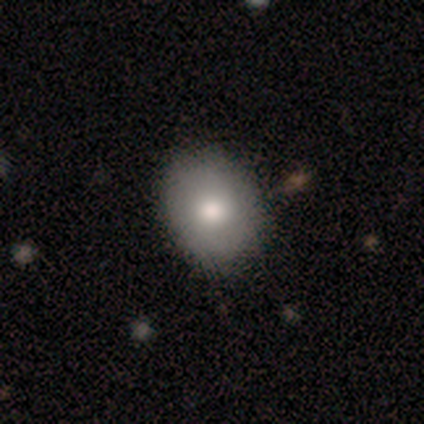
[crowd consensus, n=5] smooth_or_featured: smooth (p=0.60) [alt: featured or disk p=0.20]
how_rounded: round (p=1.00)
merging: none (p=1.00)